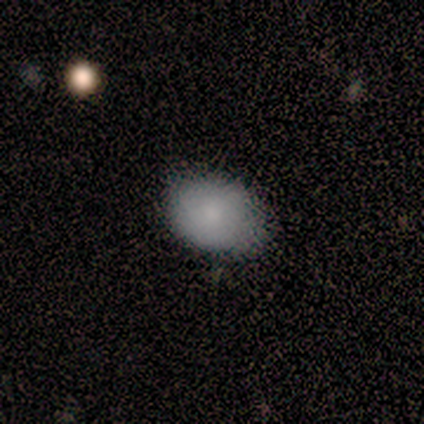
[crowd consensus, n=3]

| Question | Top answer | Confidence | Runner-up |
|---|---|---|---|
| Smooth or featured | smooth | 67% | featured or disk (33%) |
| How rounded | round | 50% | tied: in between (50%) |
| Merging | none | 100% | — |